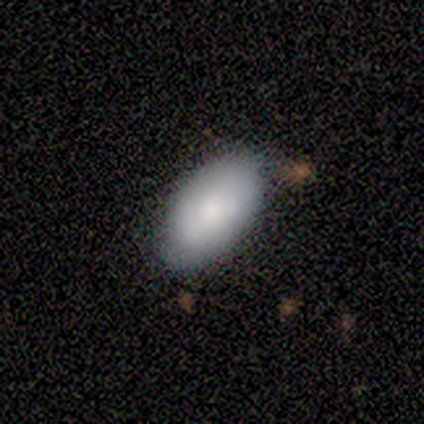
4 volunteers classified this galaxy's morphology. A smooth galaxy with no disk features (100%) that is in between round and cigar-shaped (75%). Merging: none (75%).